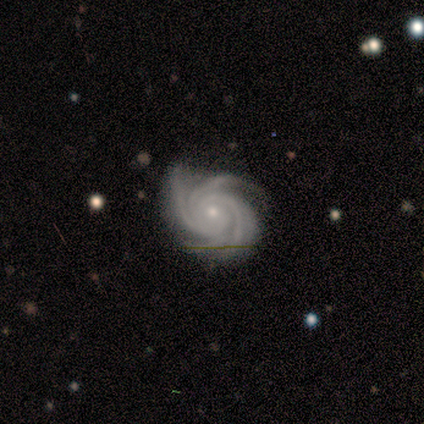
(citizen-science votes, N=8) Q: Smooth or featured?
A: featured or disk (100%)
Q: Edge-on disk?
A: no (100%)
Q: Bar?
A: no (75%); runner-up: weak (25%)
Q: Spiral arms?
A: yes (100%)
Q: Spiral winding?
A: tight (88%); runner-up: medium (12%)
Q: Spiral arm count?
A: 4 (62%); runner-up: more than 4 (25%)
Q: Bulge size?
A: small (88%); runner-up: moderate (12%)
Q: Merging?
A: none (100%)